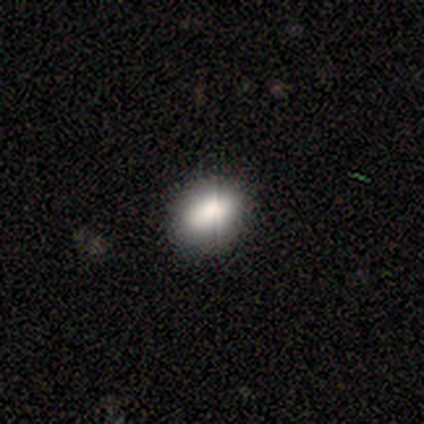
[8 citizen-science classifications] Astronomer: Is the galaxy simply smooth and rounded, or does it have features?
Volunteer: smooth — 100%.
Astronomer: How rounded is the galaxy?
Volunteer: in between — 88%.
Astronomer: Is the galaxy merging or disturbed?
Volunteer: none — 100%.